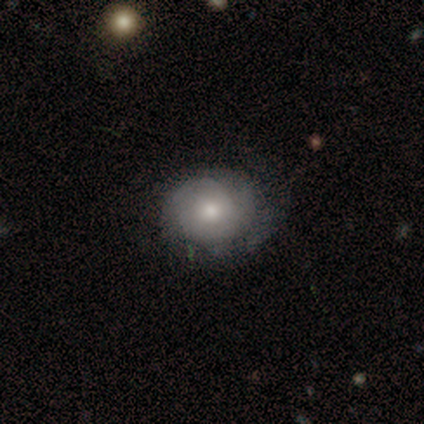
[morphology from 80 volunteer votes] type=featured or disk (54%); edge-on=no (98%); bar=no (76%); spiral arms=yes (76%); winding=tight (75%); arm count=can't tell (47%); bulge=moderate (62%); merging=none (28%).